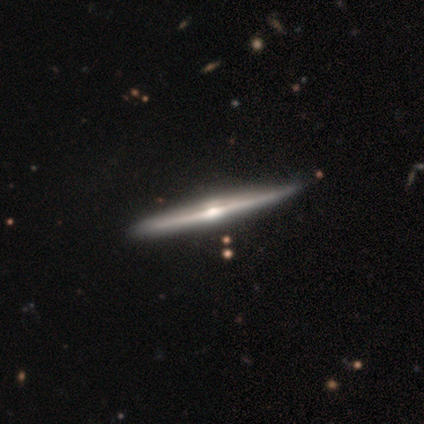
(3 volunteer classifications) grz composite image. It shows a featured or disk galaxy (100%) viewed edge-on (100%) with a rounded central bulge (100%). Merging: none (100%).